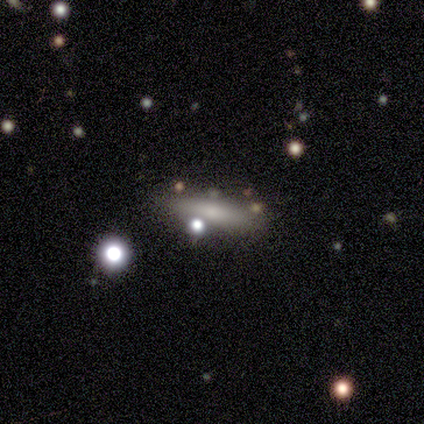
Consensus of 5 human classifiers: Q: Smooth or featured?
A: smooth (60%); runner-up: featured or disk (20%)
Q: How rounded?
A: cigar-shaped (67%); runner-up: in between (33%)
Q: Merging?
A: none (50%); runner-up: minor disturbance (25%)